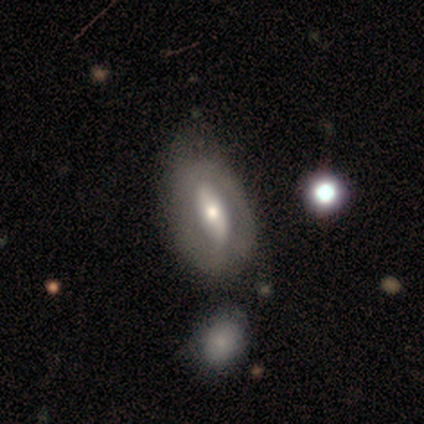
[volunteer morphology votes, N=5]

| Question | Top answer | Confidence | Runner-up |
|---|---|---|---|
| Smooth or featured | featured or disk | 40% | tied: star or artifact (40%) |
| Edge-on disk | no | 100% | — |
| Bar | strong | 50% | tied: no (50%) |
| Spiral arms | no | 100% | — |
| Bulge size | moderate | 100% | — |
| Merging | none | 67% | merger (33%) |